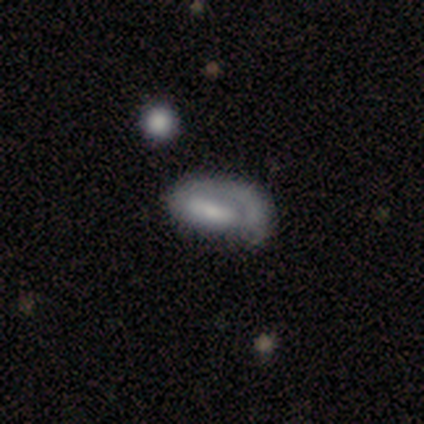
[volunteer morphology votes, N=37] Overall: featured or disk (51%; smooth 43%). Edge-on disk: no (89%). Bar: strong (35%, tied with no). Spiral arms: yes (53%; no 47%). Spiral arm count: 1 (78%). Spiral winding: medium (44%; tight 33%). Bulge size: moderate (35%; none 29%). Merging: major disturbance (49%; minor disturbance 37%).